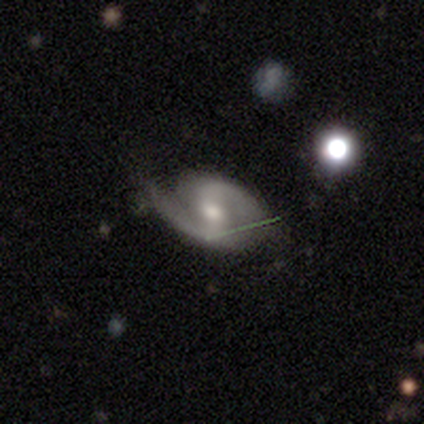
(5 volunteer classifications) A featured or disk galaxy (60%) with no bar (100%), 1 (67%) tight (67%) spiral arms (100%) and a moderate central bulge (100%).

Vote fractions:
- Smooth or featured? featured or disk: 60% / smooth: 20% / star or artifact: 20%
- Edge-on disk? no: 100% / yes: 0%
- Bar? no: 100% / strong: 0% / weak: 0%
- Spiral arms? yes: 100% / no: 0%
- Spiral winding? tight: 67% / medium: 33% / loose: 0%
- Spiral arm count? 1: 67% / 2: 33% / 3: 0% / 4: 0% / more than 4: 0% / can't tell: 0%
- Bulge size? moderate: 100% / dominant: 0% / large: 0% / small: 0% / none: 0%
- Merging? none: 75% / major disturbance: 25% / minor disturbance: 0% / merger: 0%